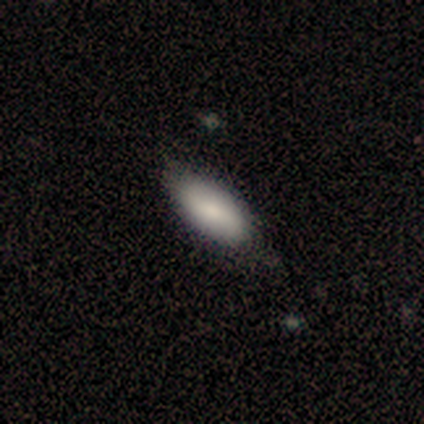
A smooth galaxy with no disk features (90%) that is in between round and cigar-shaped (86%). Merging: none (68%).